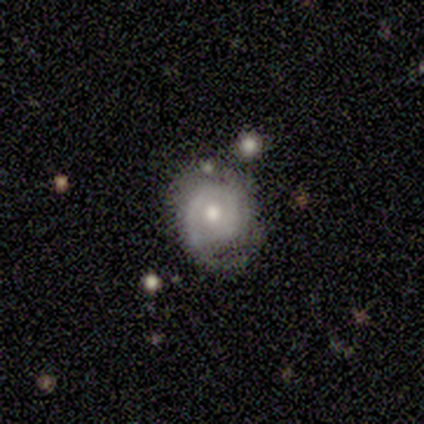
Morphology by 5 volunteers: Smooth or featured?
  - featured or disk: 100% *
  - smooth: 0%
  - star or artifact: 0%
Edge-on disk?
  - no: 100% *
  - yes: 0%
Bar?
  - no: 80% *
  - weak: 20%
  - strong: 0%
Spiral arms?
  - yes: 100% *
  - no: 0%
Spiral winding?
  - medium: 60% *
  - tight: 20%
  - loose: 20%
Spiral arm count?
  - 2: 80% *
  - 1: 20%
  - 3: 0%
  - 4: 0%
  - more than 4: 0%
  - can't tell: 0%
Bulge size?
  - moderate: 80% *
  - small: 20%
  - dominant: 0%
  - large: 0%
  - none: 0%
Merging?
  - none: 60% *
  - minor disturbance: 40%
  - major disturbance: 0%
  - merger: 0%